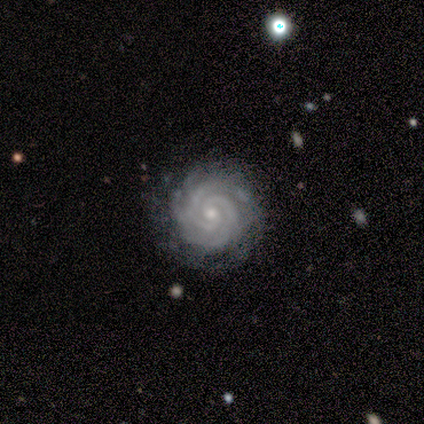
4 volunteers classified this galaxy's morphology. This is likely a featured or disk galaxy (75%). It is clearly not viewed edge-on (100%). Bar: likely no (67%). Spiral arm pattern: clearly yes (100%). Spiral arm count: likely 2 (67%). Spiral winding: clearly tight (100%). Central bulge: likely small (67%). Merging: likely none (67%).